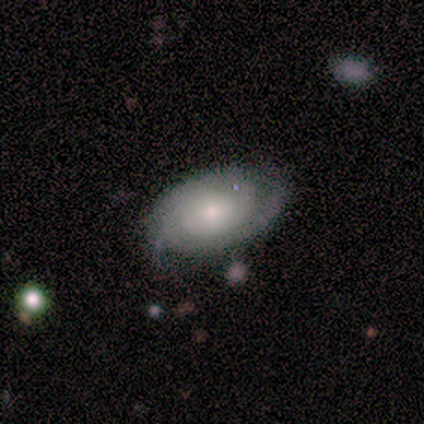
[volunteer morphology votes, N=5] This appears to be a featured or disk galaxy (80%) with no bar (100%), 2 (50%) tight (50%) spiral arms (100%) and a moderate central bulge (50%, tied with small). Merging: none (80%).